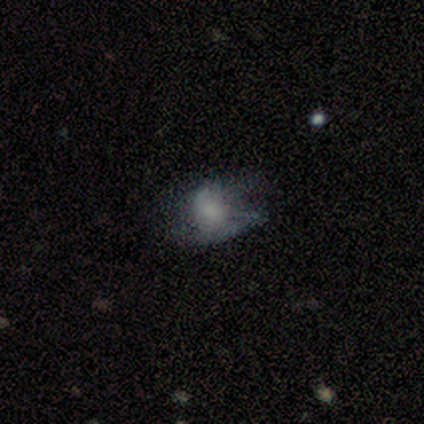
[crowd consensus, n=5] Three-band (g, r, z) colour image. It shows a featured or disk galaxy (60%) with no bar (100%), no spiral arms (67%) and a moderate central bulge (33%, tied with small and none). Merging: none (40%, tied with major disturbance).